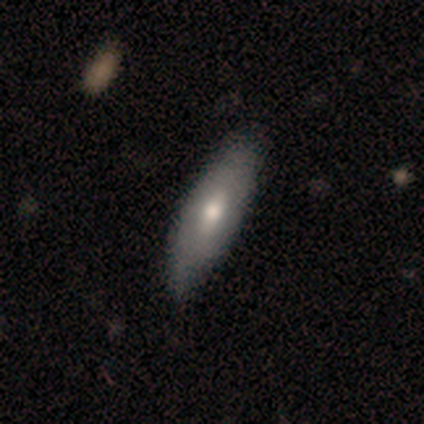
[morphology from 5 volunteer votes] This is clearly a smooth galaxy (80%). How rounded: likely in between (75%). Merging: clearly none (80%).